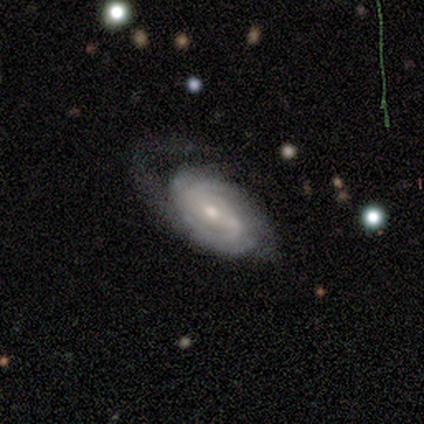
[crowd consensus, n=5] smooth_or_featured: featured or disk (p=1.00)
disk_edge_on: no (p=1.00)
bar: no (p=0.60) [alt: weak p=0.40]
has_spiral_arms: yes (p=1.00)
spiral_winding: tight (p=0.60) [alt: medium p=0.40]
spiral_arm_count: 2 (p=0.40) [tied with: can't tell p=0.40]
bulge_size: moderate (p=0.60) [alt: small p=0.40]
merging: none (p=0.60) [alt: major disturbance p=0.40]